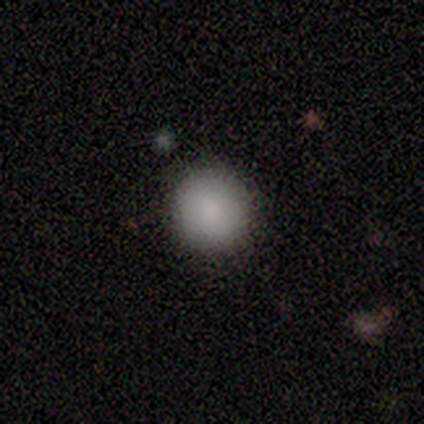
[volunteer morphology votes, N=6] A smooth galaxy with no disk features (100%) that is round (100%).

Vote fractions:
- Smooth or featured? smooth: 100% / featured or disk: 0% / star or artifact: 0%
- How rounded? round: 100% / in between: 0% / cigar-shaped: 0%
- Merging? none: 100% / minor disturbance: 0% / major disturbance: 0% / merger: 0%